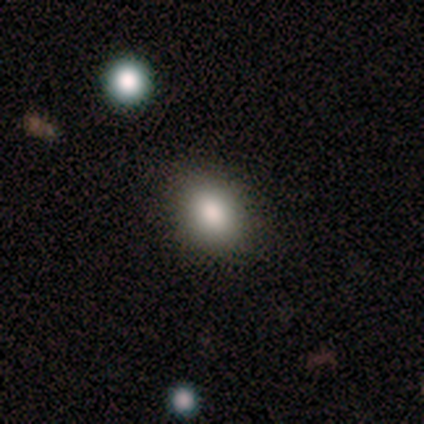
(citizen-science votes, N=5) This is clearly a smooth galaxy (80%). How rounded: likely in between (75%). Merging: clearly none (80%).